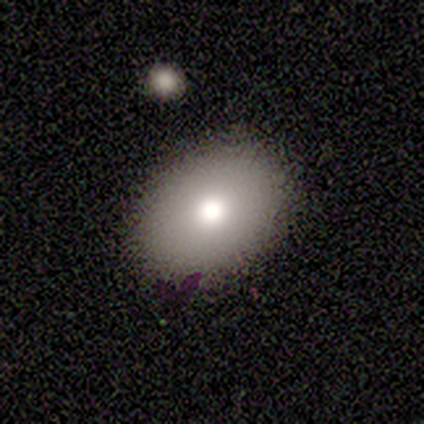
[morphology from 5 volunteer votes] Smooth or featured? smooth (80%)
How rounded? in between (75%)
Merging? none (100%)